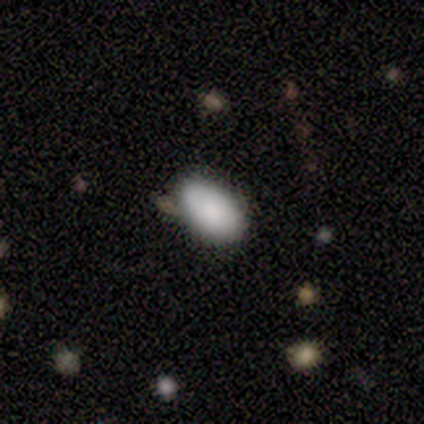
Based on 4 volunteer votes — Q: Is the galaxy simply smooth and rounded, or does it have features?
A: smooth — 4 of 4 (100%).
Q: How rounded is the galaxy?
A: in between — 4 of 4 (100%).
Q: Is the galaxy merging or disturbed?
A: none — 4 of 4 (100%).